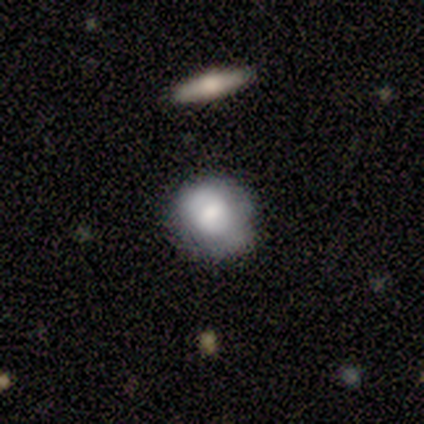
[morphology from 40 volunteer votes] type=smooth (62%); roundness=round (72%); merging=none (67%).